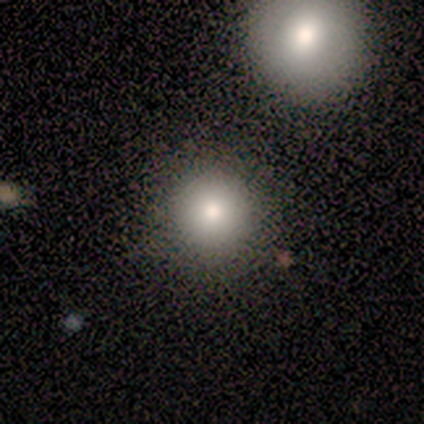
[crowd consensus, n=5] Morphology: type=smooth (100%); roundness=round (100%); merging=none (40%, tied with merger).